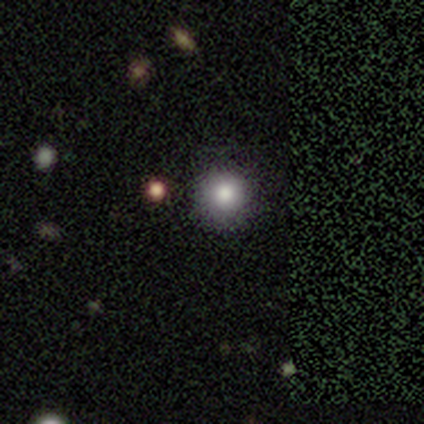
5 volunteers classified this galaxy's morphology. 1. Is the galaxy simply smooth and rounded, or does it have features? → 60% smooth, 40% star or artifact, 0% featured or disk.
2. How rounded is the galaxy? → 100% round, 0% in between, 0% cigar-shaped.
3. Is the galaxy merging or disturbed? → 100% none, 0% minor disturbance, 0% major disturbance, 0% merger.